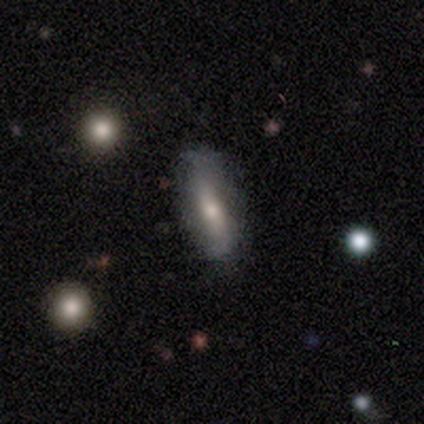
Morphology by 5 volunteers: A smooth galaxy with no disk features (60%) that is cigar-shaped (67%).

Vote fractions:
- Smooth or featured? smooth: 60% / featured or disk: 40% / star or artifact: 0%
- How rounded? cigar-shaped: 67% / in between: 33% / round: 0%
- Merging? none: 100% / minor disturbance: 0% / major disturbance: 0% / merger: 0%